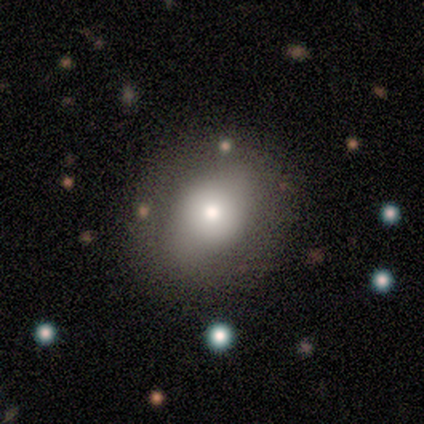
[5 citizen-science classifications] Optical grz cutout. It shows a featured or disk galaxy (60%) with no bar (100%), no spiral arms (100%) and a large central bulge (33%, tied with moderate and small). Merging: none (100%).